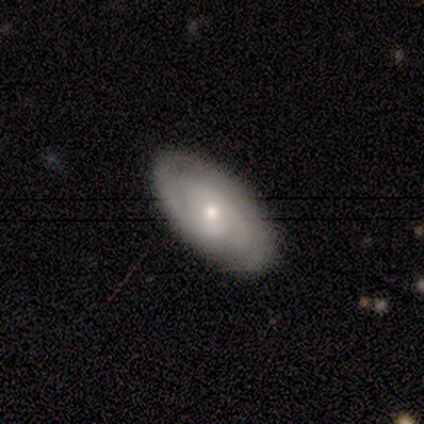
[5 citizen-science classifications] A featured or disk galaxy (80%) with no bar (50%), 2 (33%, tied with more than 4 and can't tell) tight (67%) spiral arms (75%) and a small central bulge (50%). Merging: none (100%).